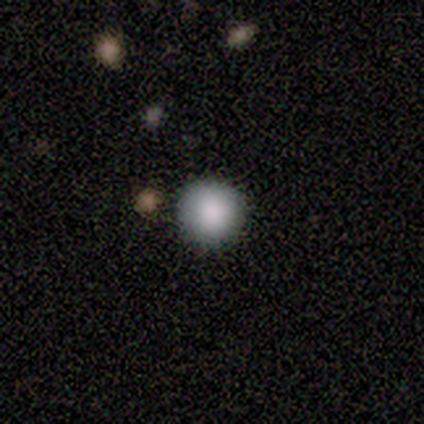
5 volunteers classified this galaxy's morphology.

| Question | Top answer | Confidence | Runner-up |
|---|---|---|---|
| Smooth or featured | smooth | 100% | — |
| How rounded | round | 100% | — |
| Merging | none | 80% | minor disturbance (20%) |